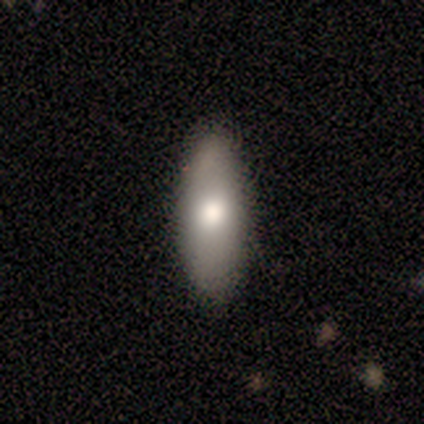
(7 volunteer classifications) Overall: smooth (86%). How rounded: in between (50%, tied with cigar-shaped). Merging: none (100%).